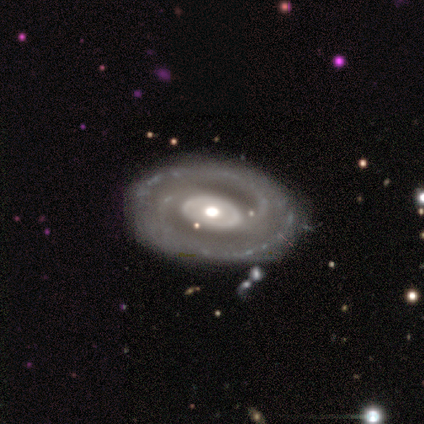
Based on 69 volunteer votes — Overall: featured or disk (94%). Edge-on disk: no (98%). Bar: no (62%; weak 23%). Spiral arms: yes (88%). Spiral arm count: 2 (93%). Spiral winding: tight (68%; medium 29%). Bulge size: moderate (67%; large 28%). Merging: none (83%).